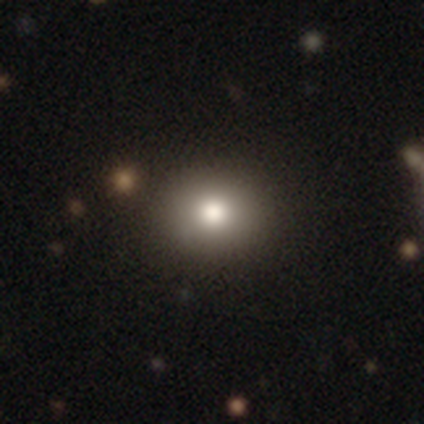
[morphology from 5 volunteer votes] This appears to be a smooth galaxy with no disk features (80%) that is round (75%). Merging: none (100%).